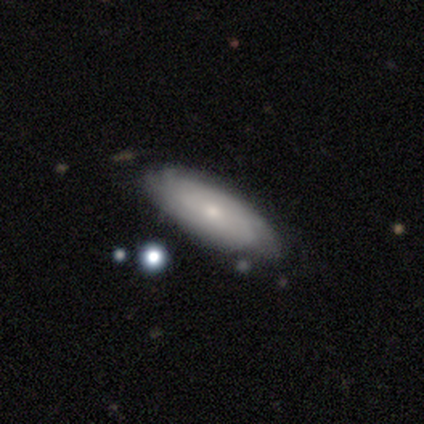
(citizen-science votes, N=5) This is likely a featured or disk galaxy (60%). It is clearly not viewed edge-on (100%). Bar: marginally strong (33%, tied with weak and no). Spiral arm pattern: clearly yes (100%). Spiral arm count: likely can't tell (67%). Spiral winding: likely tight (67%). Central bulge: likely small (67%). Merging: likely none (60%).